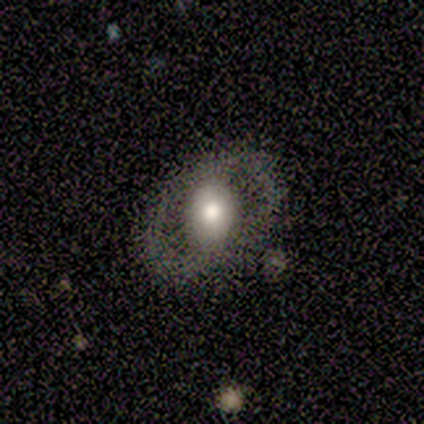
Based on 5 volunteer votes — Smooth or featured? featured or disk (60%)
Edge-on disk? no (67%)
Bar? no (100%)
Spiral arms? no (100%)
Bulge size? small (100%)
Merging? none (40%, tied with minor disturbance)